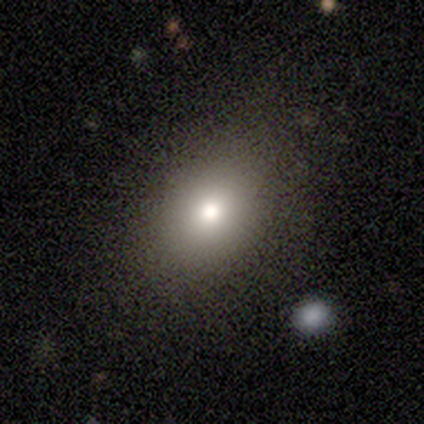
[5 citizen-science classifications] Volunteers were most divided on "how rounded": in between: 60%, round: 40%, cigar-shaped: 0%. More confident: smooth or featured — smooth (100%); merging — none (80%).